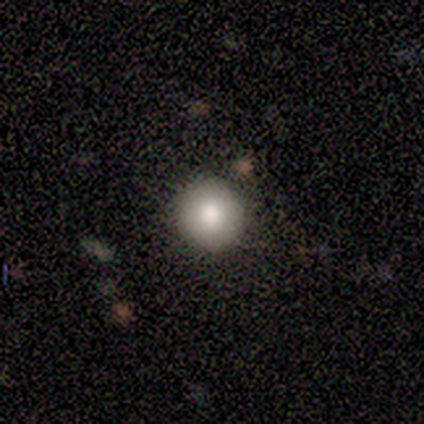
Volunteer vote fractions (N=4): Q: Smooth or featured?
A: smooth (75%); runner-up: featured or disk (25%)
Q: How rounded?
A: round (100%)
Q: Merging?
A: none (100%)